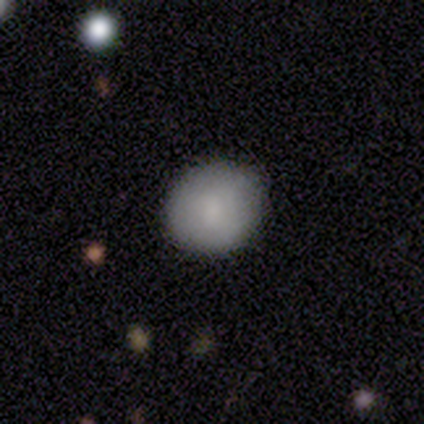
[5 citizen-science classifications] Smooth or featured? 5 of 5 (100%) said smooth. How rounded? 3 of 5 (60%) said round. Merging? 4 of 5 (80%) said none.